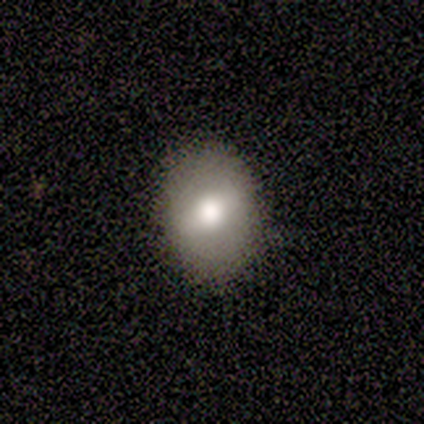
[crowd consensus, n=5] Overall: smooth (80%). How rounded: in between (75%). Merging: none (100%).